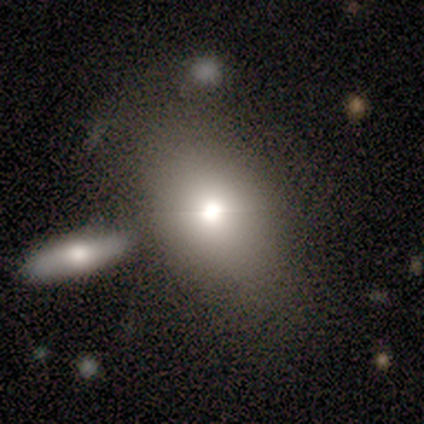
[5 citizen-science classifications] smooth 60%, star or artifact 40%, featured or disk 0%. Down the decision tree: how rounded — in between (100%); merging — none (67%).